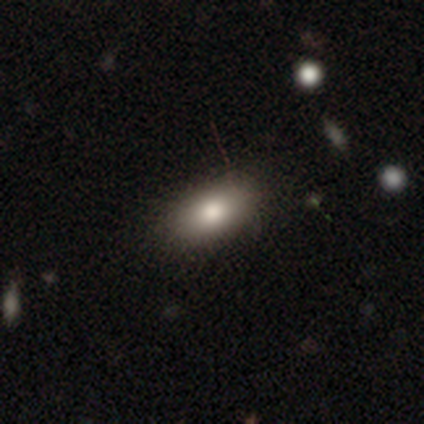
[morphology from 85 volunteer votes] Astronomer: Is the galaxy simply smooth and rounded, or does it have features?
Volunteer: smooth — 86%.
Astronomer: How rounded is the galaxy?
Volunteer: in between — 88%.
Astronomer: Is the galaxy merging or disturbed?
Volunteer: none — 84%.